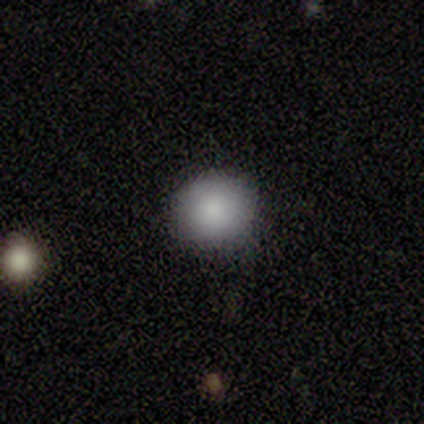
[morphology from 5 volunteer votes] Smooth or featured: smooth — 100%
How rounded: round — 100%
Merging: none — 100%